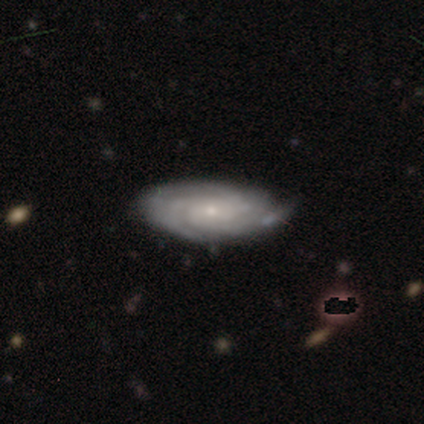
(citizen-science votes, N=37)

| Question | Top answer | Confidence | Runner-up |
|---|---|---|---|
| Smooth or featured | featured or disk | 73% | smooth (22%) |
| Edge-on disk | no | 93% | yes (7%) |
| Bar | no | 72% | weak (28%) |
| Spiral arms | yes | 100% | — |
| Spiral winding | tight | 80% | medium (12%) |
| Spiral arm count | can't tell | 40% | 3 (28%) |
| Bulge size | small | 80% | moderate (16%) |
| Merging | none | 80% | minor disturbance (20%) |